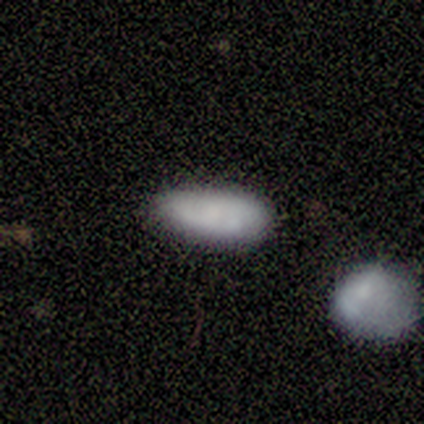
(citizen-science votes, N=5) Overall: smooth (80%). How rounded: in between (100%). Merging: minor disturbance (60%; none 40%).